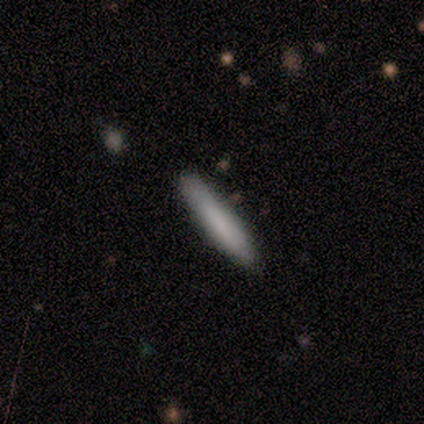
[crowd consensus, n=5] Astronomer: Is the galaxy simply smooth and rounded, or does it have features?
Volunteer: smooth — 100%.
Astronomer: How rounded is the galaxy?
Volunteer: cigar-shaped — 80%.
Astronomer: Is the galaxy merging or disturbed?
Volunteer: none — 60% (runner-up: minor disturbance, 40%).